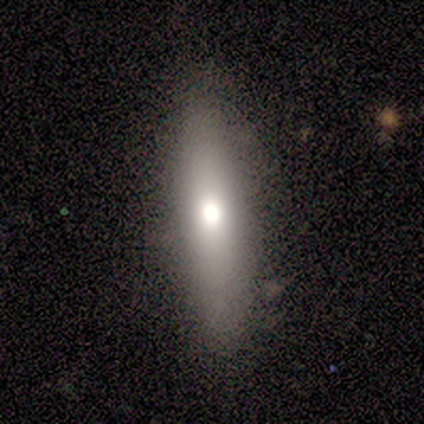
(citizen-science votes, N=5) This appears to be a smooth galaxy with no disk features (60%) that is cigar-shaped (67%). Merging: none (100%).